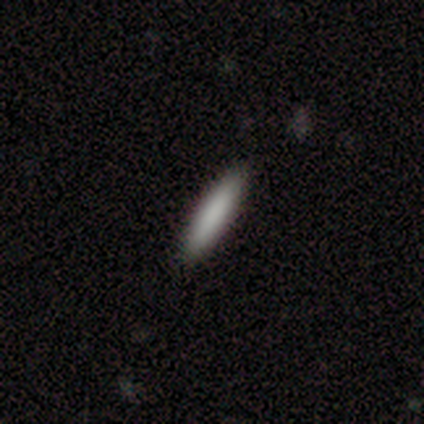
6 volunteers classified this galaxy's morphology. Overall: smooth (67%; featured or disk 33%). How rounded: cigar-shaped (100%). Merging: none (100%).